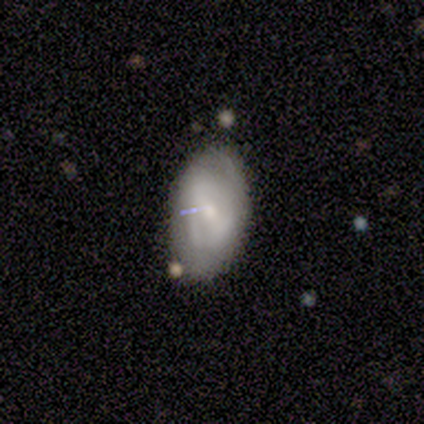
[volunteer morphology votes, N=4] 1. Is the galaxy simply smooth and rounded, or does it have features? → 50% smooth (tied), 50% featured or disk (tied), 0% star or artifact.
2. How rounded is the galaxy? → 100% in between, 0% round, 0% cigar-shaped.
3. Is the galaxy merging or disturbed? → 75% minor disturbance, 25% none, 0% major disturbance, 0% merger.